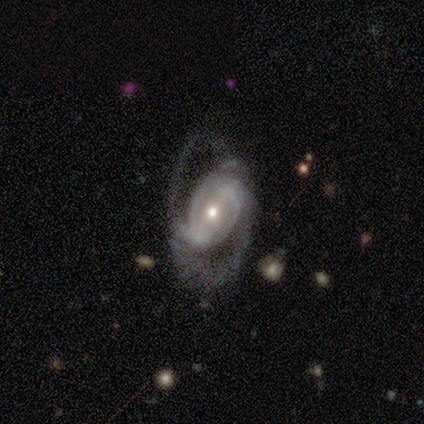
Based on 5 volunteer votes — This appears to be a featured or disk galaxy (100%) with a weak bar (60%), medium (80%) spiral arms (100%) and a small central bulge (60%). Merging: major disturbance (60%).